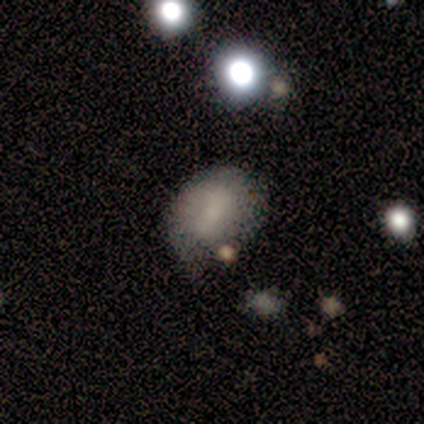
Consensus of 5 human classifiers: Smooth or featured: smooth — 80% (featured or disk — 20%)
How rounded: round — 50% (tied with in between — 50%)
Merging: none — 40% (tied with minor disturbance — 40%)